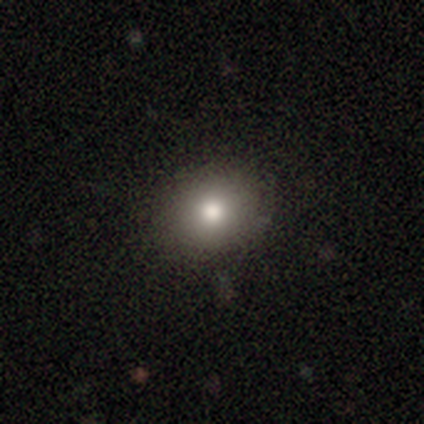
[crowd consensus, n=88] This appears to be a smooth galaxy with no disk features (78%) that is round (75%). Merging: none (91%).